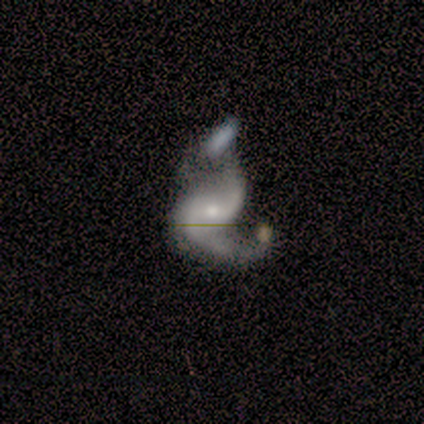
Q: Smooth or featured?
A: featured or disk (75%); runner-up: smooth (25%)
Q: Edge-on disk?
A: no (100%)
Q: Bar?
A: weak (67%); runner-up: strong (33%)
Q: Spiral arms?
A: yes (100%)
Q: Spiral winding?
A: loose (100%)
Q: Spiral arm count?
A: 2 (67%); runner-up: 1 (33%)
Q: Bulge size?
A: small (67%); runner-up: moderate (33%)
Q: Merging?
A: merger (75%); runner-up: minor disturbance (25%)